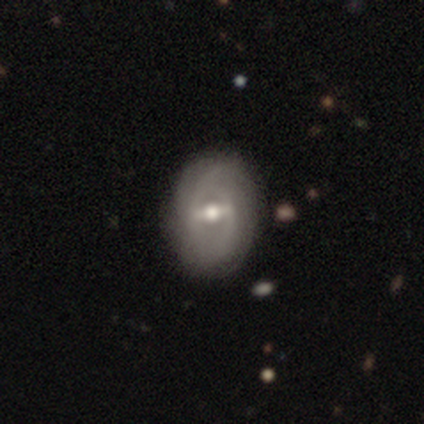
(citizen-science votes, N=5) A featured or disk galaxy (100%) with a strong bar (60%), 2 (60%) tight (60%) spiral arms (100%) and a moderate central bulge (100%).

Vote fractions:
- Smooth or featured? featured or disk: 100% / smooth: 0% / star or artifact: 0%
- Edge-on disk? no: 100% / yes: 0%
- Bar? strong: 60% / weak: 40% / no: 0%
- Spiral arms? yes: 100% / no: 0%
- Spiral winding? tight: 60% / medium: 20% / loose: 20%
- Spiral arm count? 2: 60% / can't tell: 40% / 1: 0% / 3: 0% / 4: 0% / more than 4: 0%
- Bulge size? moderate: 100% / dominant: 0% / large: 0% / small: 0% / none: 0%
- Merging? none: 80% / merger: 20% / minor disturbance: 0% / major disturbance: 0%